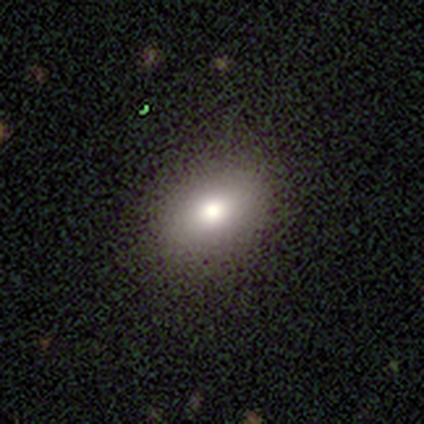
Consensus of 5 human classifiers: Overall: smooth (100%). How rounded: in between (60%; round 40%). Merging: none (80%).